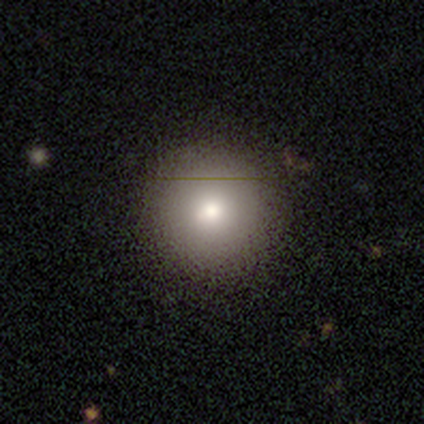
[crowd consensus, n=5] Smooth or featured?
  - smooth: 100% *
  - featured or disk: 0%
  - star or artifact: 0%
How rounded?
  - round: 100% *
  - in between: 0%
  - cigar-shaped: 0%
Merging?
  - none: 80% *
  - minor disturbance: 20%
  - major disturbance: 0%
  - merger: 0%